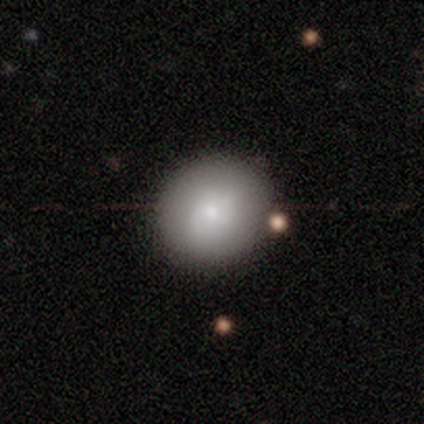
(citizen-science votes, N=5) Overall: smooth (60%; featured or disk 20%). How rounded: round (100%). Merging: none (50%; minor disturbance 25%).